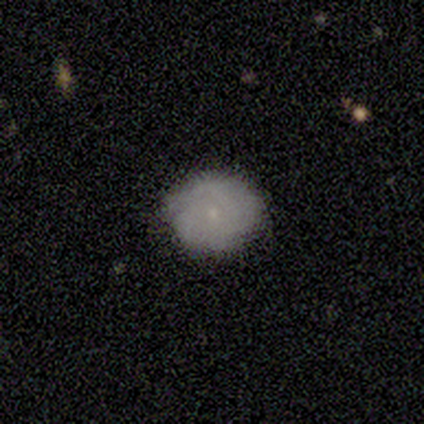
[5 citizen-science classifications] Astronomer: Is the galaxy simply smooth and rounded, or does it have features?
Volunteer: smooth — 60% (runner-up: featured or disk, 40%).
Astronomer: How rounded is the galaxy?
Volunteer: in between — 67%.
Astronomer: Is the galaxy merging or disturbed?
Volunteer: none — 60% (runner-up: minor disturbance, 40%).